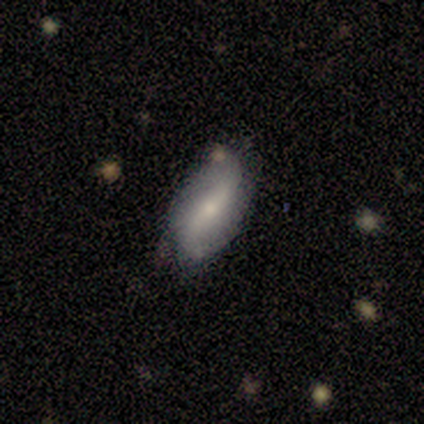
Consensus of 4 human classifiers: Q: Smooth or featured?
A: smooth (50%); tied with: featured or disk (50%)
Q: How rounded?
A: round (50%); tied with: cigar-shaped (50%)
Q: Merging?
A: none (50%); tied with: minor disturbance (50%)